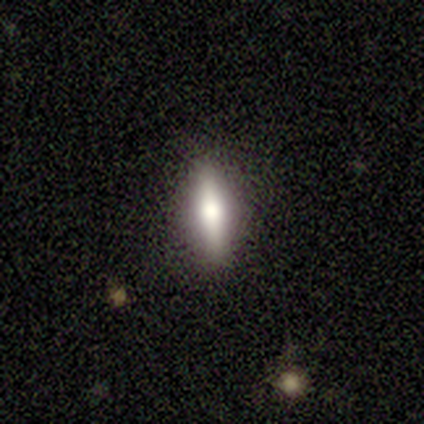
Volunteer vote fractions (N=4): Smooth or featured? smooth (50%, tied with featured or disk)
How rounded? cigar-shaped (100%)
Merging? none (100%)